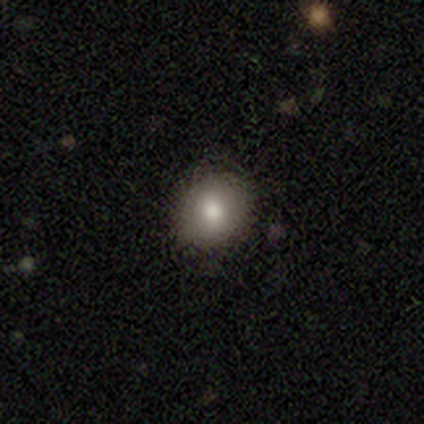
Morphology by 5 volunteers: Q: Smooth or featured?
A: smooth (100%)
Q: How rounded?
A: round (80%); runner-up: in between (20%)
Q: Merging?
A: none (80%); runner-up: minor disturbance (20%)